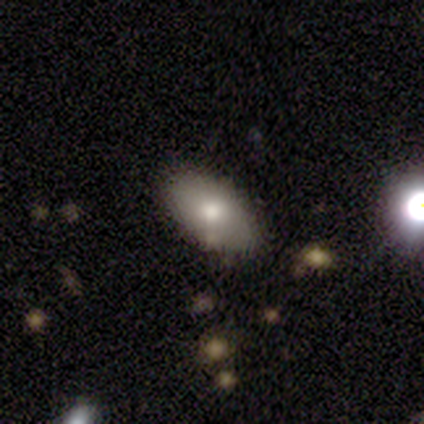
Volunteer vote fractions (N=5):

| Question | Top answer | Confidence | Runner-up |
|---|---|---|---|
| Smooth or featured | smooth | 80% | featured or disk (20%) |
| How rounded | in between | 100% | — |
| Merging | none | 80% | minor disturbance (20%) |